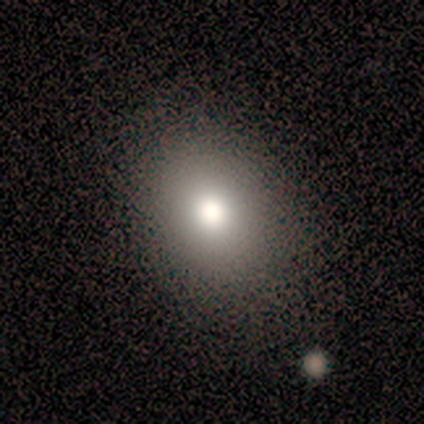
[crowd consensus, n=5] Morphology: type=smooth (100%); roundness=in between (80%); merging=none (100%).